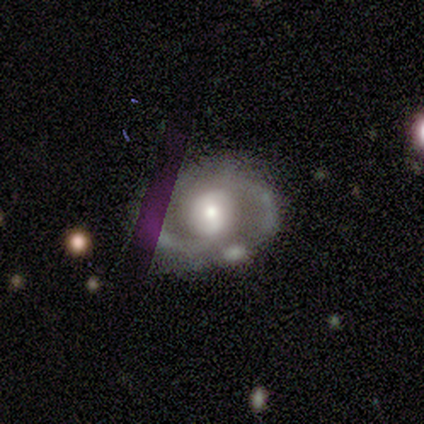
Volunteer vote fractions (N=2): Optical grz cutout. It shows a featured or disk galaxy (100%) viewed edge-on (50%, tied with no) with a rounded central bulge (100%). Merging: minor disturbance (100%).